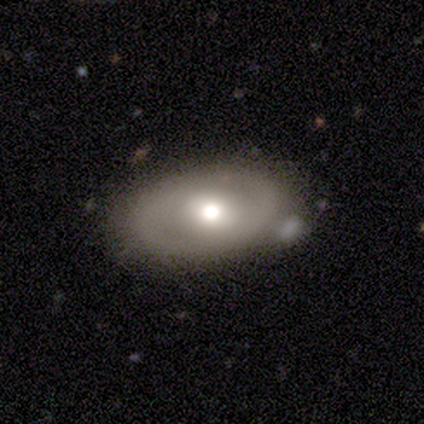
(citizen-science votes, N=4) Q: Smooth or featured?
A: featured or disk (75%); runner-up: smooth (25%)
Q: Edge-on disk?
A: no (100%)
Q: Bar?
A: weak (100%)
Q: Spiral arms?
A: no (100%)
Q: Bulge size?
A: moderate (100%)
Q: Merging?
A: none (75%); runner-up: minor disturbance (25%)